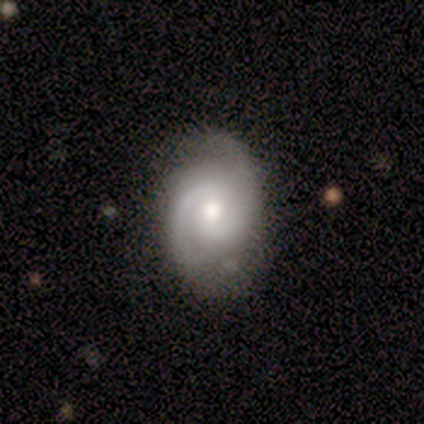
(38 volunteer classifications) Smooth or featured? featured or disk (76%)
Edge-on disk? no (100%)
Bar? no (55%)
Spiral arms? yes (100%)
Spiral winding? medium (55%)
Spiral arm count? 2 (97%)
Bulge size? moderate (69%)
Merging? none (77%)